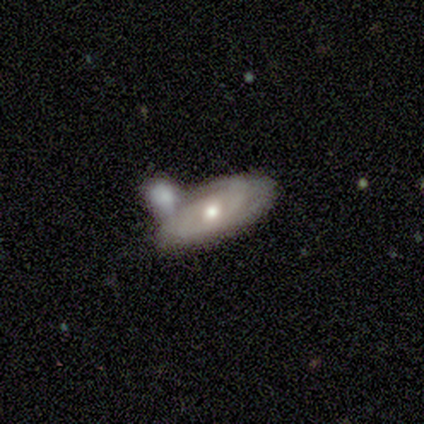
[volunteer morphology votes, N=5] Overall: featured or disk (80%). Edge-on disk: no (100%). Bar: no (75%). Spiral arms: yes (100%). Spiral arm count: 2 (50%; 3 25%). Spiral winding: medium (75%). Bulge size: moderate (50%, tied with small). Merging: minor disturbance (40%, tied with merger).